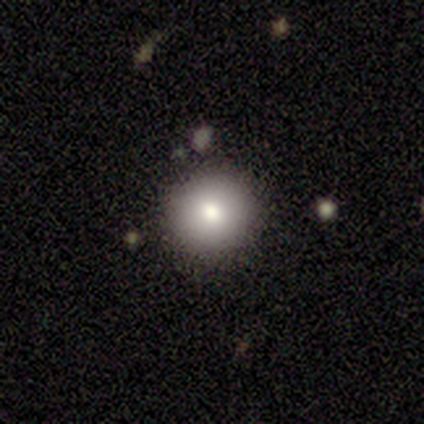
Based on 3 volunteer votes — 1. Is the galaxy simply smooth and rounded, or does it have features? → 67% smooth, 33% featured or disk, 0% star or artifact.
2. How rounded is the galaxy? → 100% round, 0% in between, 0% cigar-shaped.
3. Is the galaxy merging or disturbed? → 100% none, 0% minor disturbance, 0% major disturbance, 0% merger.